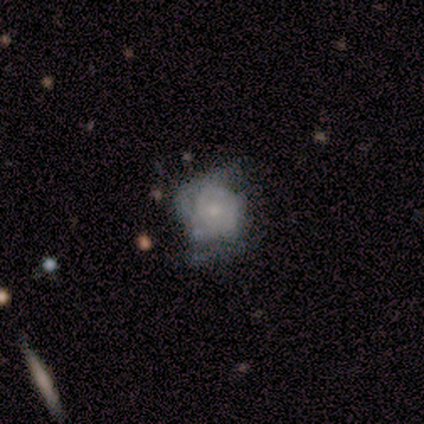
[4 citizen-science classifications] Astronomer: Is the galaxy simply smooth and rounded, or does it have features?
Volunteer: smooth — 75%.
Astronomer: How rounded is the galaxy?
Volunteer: round — 100%.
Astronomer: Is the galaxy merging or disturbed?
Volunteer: major disturbance — 67%.